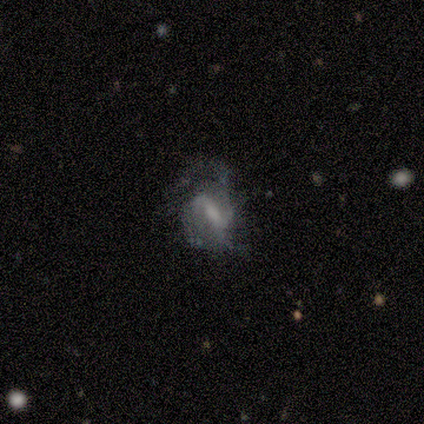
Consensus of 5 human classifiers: Overall: featured or disk (100%). Edge-on disk: no (100%). Bar: weak (80%). Spiral arms: yes (100%). Spiral arm count: 2 (60%; 3 20%). Spiral winding: medium (40%, tied with loose). Bulge size: small (60%; large 20%). Merging: none (80%).